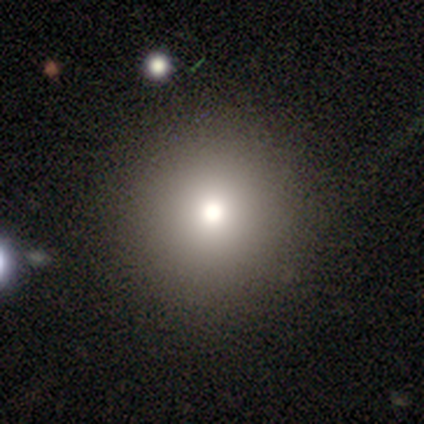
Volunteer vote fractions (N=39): Overall: smooth (74%). How rounded: round (100%). Merging: none (50%).